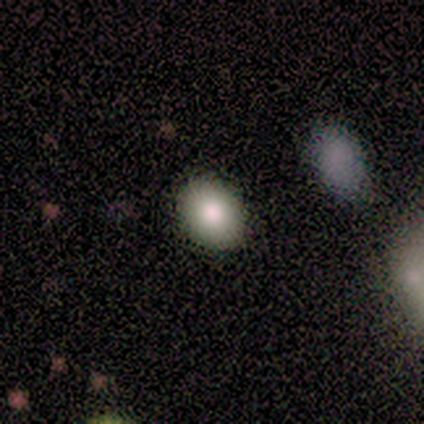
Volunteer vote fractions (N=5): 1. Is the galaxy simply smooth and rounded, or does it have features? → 80% smooth, 20% featured or disk, 0% star or artifact.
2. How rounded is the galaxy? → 75% in between, 25% round, 0% cigar-shaped.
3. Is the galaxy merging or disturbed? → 100% none, 0% minor disturbance, 0% major disturbance, 0% merger.